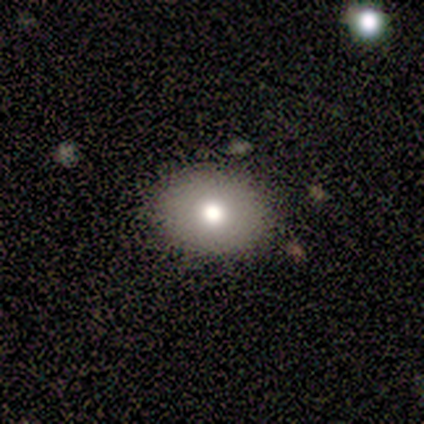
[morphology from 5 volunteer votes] smooth-or-featured: smooth: 80% | featured or disk: 20% | star or artifact: 0%
  how-rounded: round: 50% (tied) | in between: 50% (tied) | cigar-shaped: 0%
  merging: none: 80% | major disturbance: 20% | minor disturbance: 0% | merger: 0%